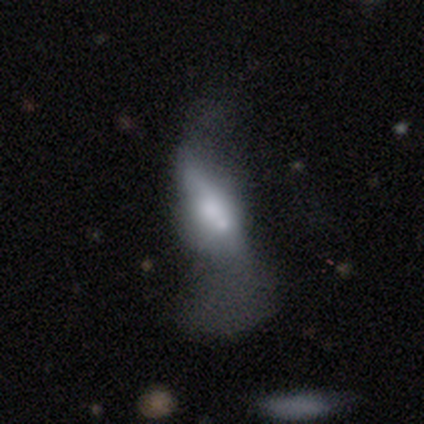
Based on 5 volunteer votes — This is clearly a featured or disk galaxy (100%). It is likely not viewed edge-on (60%). Bar: likely weak (67%). Spiral arm pattern: likely yes (67%). Spiral arm count: possibly 2 (50%, tied with can't tell). Spiral winding: clearly loose (100%). Central bulge: likely small (67%). Merging: marginally none (40%, tied with major disturbance).